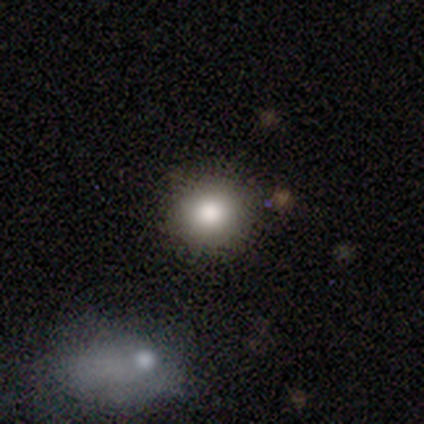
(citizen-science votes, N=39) Volunteers were most divided on "merging": none: 86%, minor disturbance: 11%, merger: 3%, major disturbance: 0%. More confident: smooth or featured — smooth (92%); how rounded — round (92%).